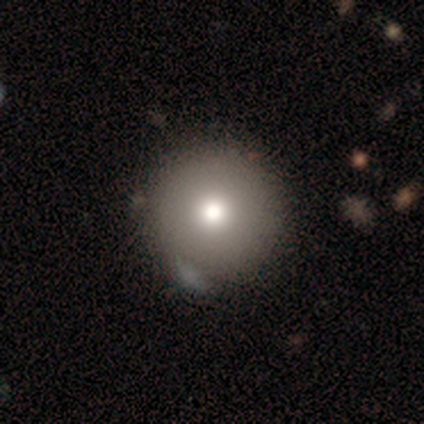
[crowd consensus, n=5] This appears to be a smooth galaxy with no disk features (80%) that is round (100%). Merging: none (75%).